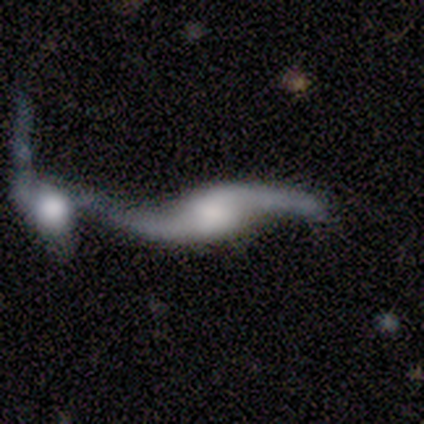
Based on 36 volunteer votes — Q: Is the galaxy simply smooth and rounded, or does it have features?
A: featured or disk — 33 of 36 (92%).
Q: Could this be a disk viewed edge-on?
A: no — 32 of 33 (97%).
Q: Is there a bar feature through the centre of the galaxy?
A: no — 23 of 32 (72%).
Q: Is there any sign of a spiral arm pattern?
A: yes — 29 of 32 (91%).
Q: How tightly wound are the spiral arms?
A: loose — 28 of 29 (97%).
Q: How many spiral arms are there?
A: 2 — 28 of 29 (97%).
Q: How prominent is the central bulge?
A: none — 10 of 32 (31%).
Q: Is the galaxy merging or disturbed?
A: merger — 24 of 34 (71%).